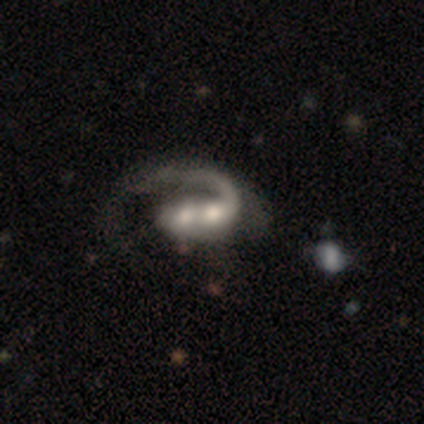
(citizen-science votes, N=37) Smooth or featured: featured or disk — 86% (smooth — 11%)
Edge-on disk: no — 97% (yes — 3%)
Bar: no — 58% (weak — 26%)
Spiral arms: yes — 97% (no — 3%)
Spiral winding: medium — 40% (loose — 33%)
Spiral arm count: 1 — 97% (can't tell — 3%)
Bulge size: moderate — 61% (large — 19%)
Merging: merger — 69% (none — 19%)